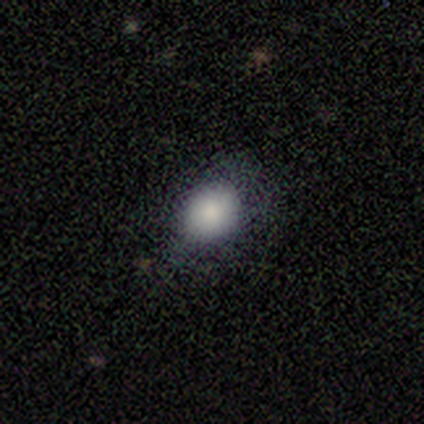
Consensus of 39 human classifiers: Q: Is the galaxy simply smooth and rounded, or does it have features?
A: smooth — 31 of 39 (79%).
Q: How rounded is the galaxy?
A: round — 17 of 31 (55%).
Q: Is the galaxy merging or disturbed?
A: none — 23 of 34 (68%).